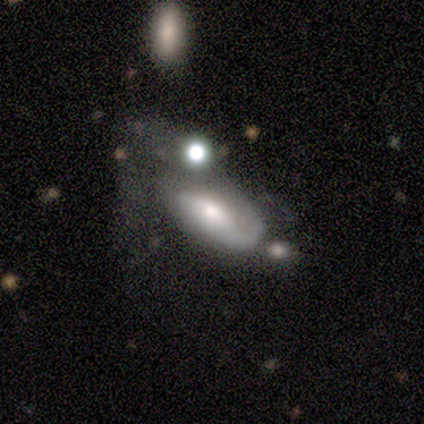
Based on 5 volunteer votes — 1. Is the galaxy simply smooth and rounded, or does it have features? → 60% featured or disk, 20% smooth, 20% star or artifact.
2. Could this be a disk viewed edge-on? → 67% no, 33% yes.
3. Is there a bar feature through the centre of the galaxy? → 100% no, 0% strong, 0% weak.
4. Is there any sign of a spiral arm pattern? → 100% yes, 0% no.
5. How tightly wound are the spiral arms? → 100% medium, 0% tight, 0% loose.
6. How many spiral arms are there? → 50% 1 (tied), 50% can't tell (tied), 0% 2, 0% 3, 0% 4, 0% more than 4.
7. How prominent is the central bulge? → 50% moderate (tied), 50% small (tied), 0% dominant, 0% large, 0% none.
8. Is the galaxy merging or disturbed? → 75% major disturbance, 25% none, 0% minor disturbance, 0% merger.